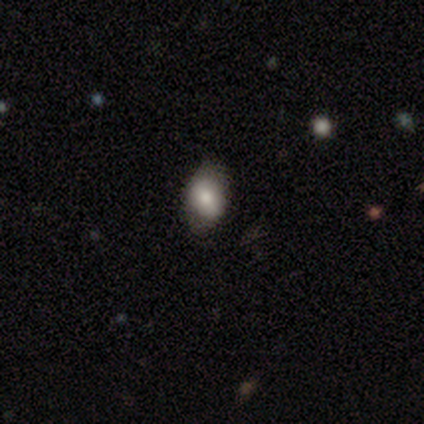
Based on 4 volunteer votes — Morphology: type=smooth (100%); roundness=in between (75%); merging=minor disturbance (50%).